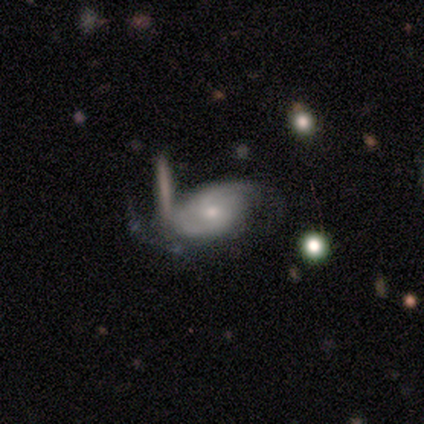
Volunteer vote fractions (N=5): featured or disk 80%, smooth 20%, star or artifact 0%. Down the decision tree: edge-on disk — no (100%); bar — weak (50%, tied with no); spiral arms — yes (100%); spiral arm count — 2 (100%); spiral winding — tight (100%); bulge size — moderate (50%, tied with small); merging — minor disturbance (40%, tied with major disturbance).